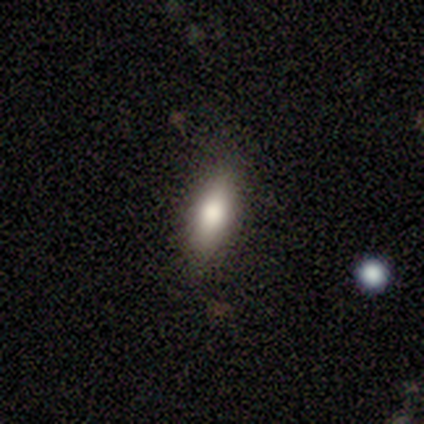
Q: Smooth or featured?
A: smooth (100%)
Q: How rounded?
A: cigar-shaped (50%); runner-up: round (25%)
Q: Merging?
A: none (75%); runner-up: minor disturbance (25%)